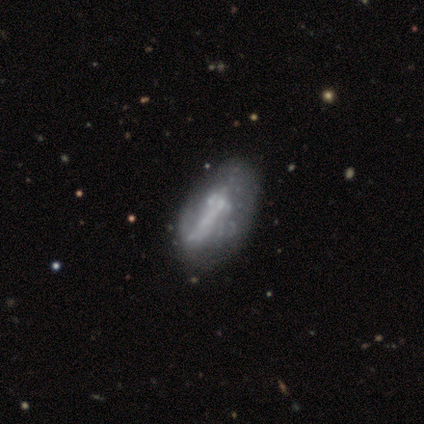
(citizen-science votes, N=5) featured or disk 60%, smooth 20%, star or artifact 20%. Down the decision tree: edge-on disk — no (67%); bar — strong (50%, tied with no); spiral arms — no (100%); bulge size — small (50%, tied with none); merging — none (75%).